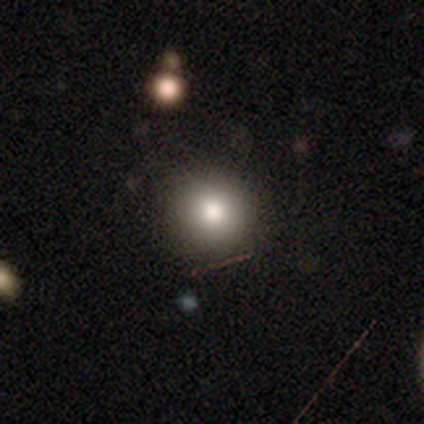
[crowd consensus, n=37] A smooth galaxy with no disk features (86%) that is round (94%).

Vote fractions:
- Smooth or featured? smooth: 86% / star or artifact: 8% / featured or disk: 5%
- How rounded? round: 94% / cigar-shaped: 6% / in between: 0%
- Merging? none: 85% / minor disturbance: 6% / merger: 6% / major disturbance: 3%